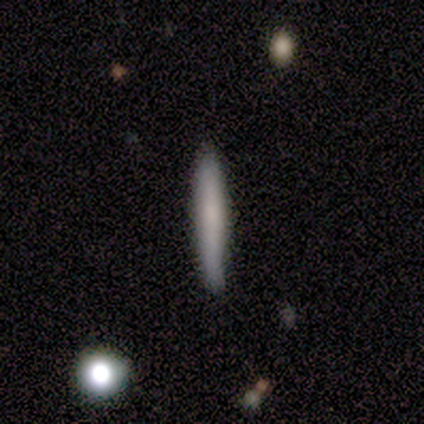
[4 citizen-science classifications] Smooth or featured: smooth — 75% (featured or disk — 25%)
How rounded: cigar-shaped — 100%
Merging: none — 75% (minor disturbance — 25%)